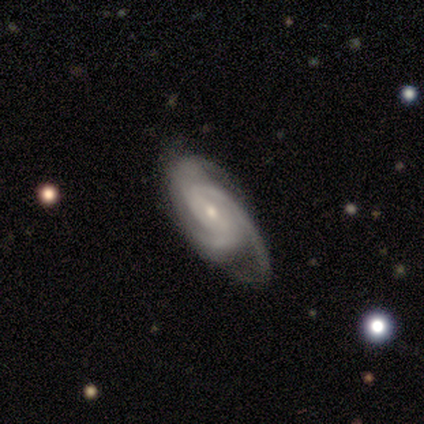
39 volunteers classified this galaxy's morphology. A featured or disk galaxy (92%) with no bar (56%), 3 (55%) tight (45%, tied with medium) spiral arms (97%) and a small central bulge (62%).

Vote fractions:
- Smooth or featured? featured or disk: 92% / star or artifact: 5% / smooth: 3%
- Edge-on disk? no: 94% / yes: 6%
- Bar? no: 56% / weak: 26% / strong: 18%
- Spiral arms? yes: 97% / no: 3%
- Spiral winding? tight: 45% (tied) / medium: 45% (tied) / loose: 9%
- Spiral arm count? 3: 55% / 2: 27% / 4: 12% / can't tell: 6% / 1: 0% / more than 4: 0%
- Bulge size? small: 62% / moderate: 38% / dominant: 0% / large: 0% / none: 0%
- Merging? none: 65% / minor disturbance: 27% / major disturbance: 8% / merger: 0%